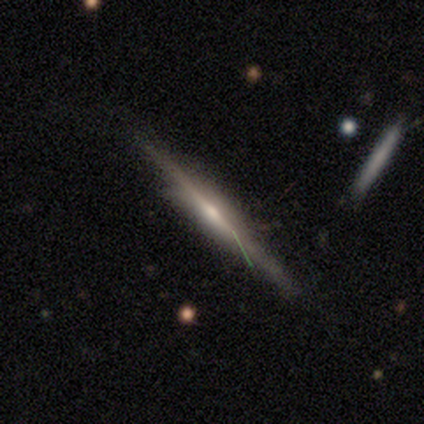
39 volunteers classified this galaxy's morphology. A featured or disk galaxy (77%) viewed edge-on (93%) with a rounded central bulge (79%).

Vote fractions:
- Smooth or featured? featured or disk: 77% / smooth: 18% / star or artifact: 5%
- Edge-on disk? yes: 93% / no: 7%
- Edge-on bulge? rounded: 79% / boxy: 14% / none: 7%
- Merging? none: 57% / minor disturbance: 35% / major disturbance: 5% / merger: 3%